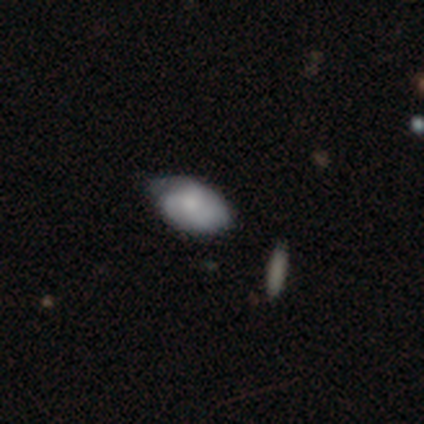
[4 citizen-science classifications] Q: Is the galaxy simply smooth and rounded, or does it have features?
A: smooth — 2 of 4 (50%, tied with featured or disk).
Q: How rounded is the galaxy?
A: in between — 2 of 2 (100%).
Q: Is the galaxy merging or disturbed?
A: none — 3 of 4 (75%).